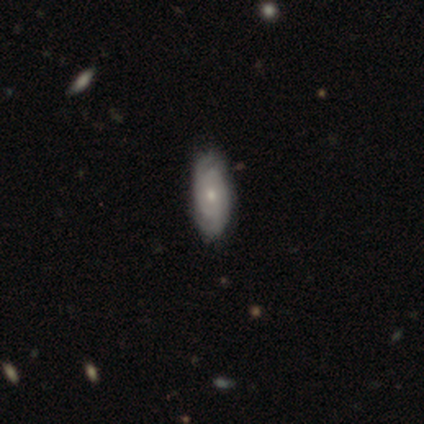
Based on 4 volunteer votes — This is possibly a featured or disk galaxy (50%, tied with star or artifact). It is clearly not viewed edge-on (100%). Bar: clearly no (100%). Spiral arm pattern: clearly yes (100%). Spiral arm count: clearly 2 (100%). Spiral winding: clearly tight (100%). Central bulge: possibly moderate (50%, tied with small). Merging: clearly none (100%).